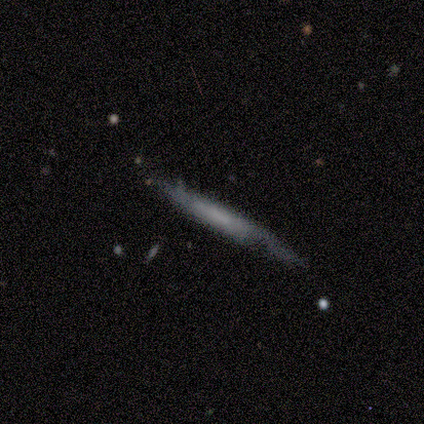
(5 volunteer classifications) Smooth or featured?
  - smooth: 60% *
  - featured or disk: 40%
  - star or artifact: 0%
How rounded?
  - cigar-shaped: 100% *
  - round: 0%
  - in between: 0%
Merging?
  - none: 60% *
  - minor disturbance: 40%
  - major disturbance: 0%
  - merger: 0%